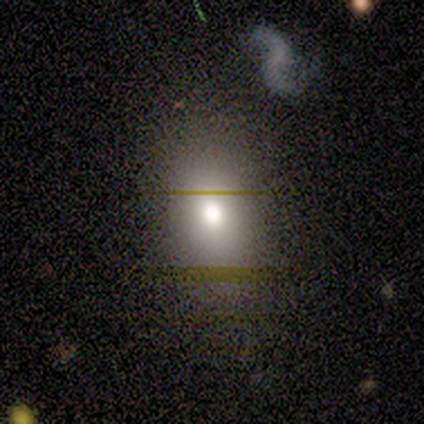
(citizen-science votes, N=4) Volunteers were most divided on "smooth or featured": smooth: 75%, featured or disk: 25%, star or artifact: 0%. More confident: how rounded — in between (100%); merging — none (75%).